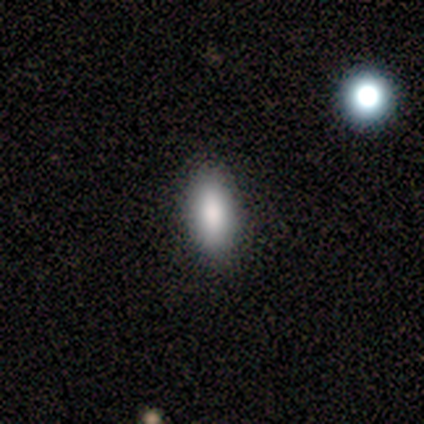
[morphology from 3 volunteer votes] type=smooth (100%); roundness=in between (67%); merging=none (67%).